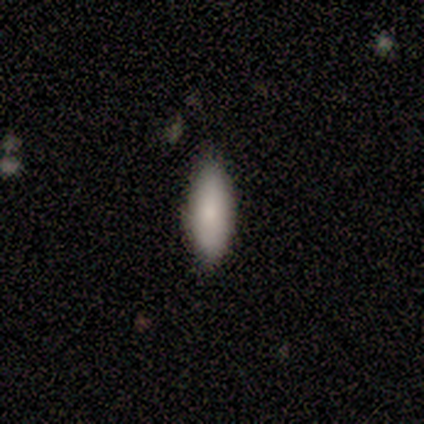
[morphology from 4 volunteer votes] A smooth galaxy with no disk features (75%) that is in between round and cigar-shaped (100%). Merging: minor disturbance (50%).